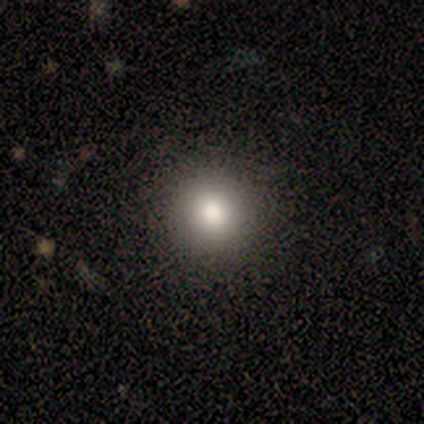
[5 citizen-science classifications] This is likely a smooth galaxy (60%). How rounded: clearly round (100%). Merging: clearly none (100%).